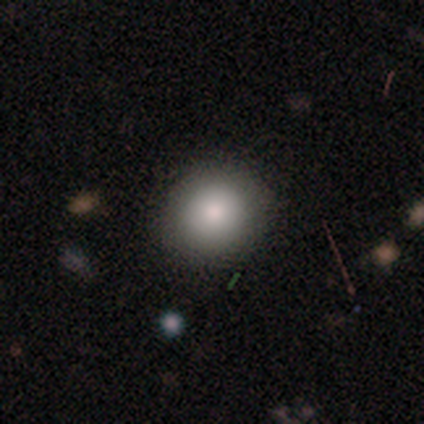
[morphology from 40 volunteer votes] smooth_or_featured: smooth (p=0.80) [alt: featured or disk p=0.15]
how_rounded: round (p=0.78) [alt: in between p=0.22]
merging: none (p=0.58) [alt: minor disturbance p=0.11]